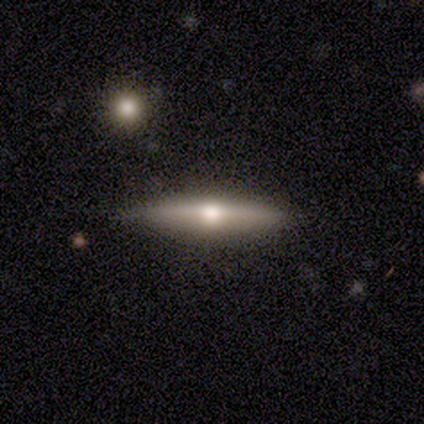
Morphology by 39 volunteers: Overall: featured or disk (72%). Edge-on disk: yes (100%). Edge-on bulge: rounded (79%). Merging: none (89%).